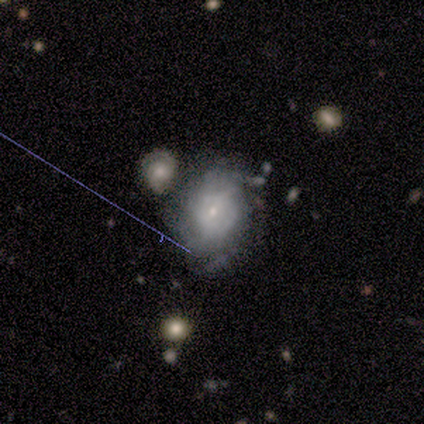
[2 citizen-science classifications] smooth-or-featured: smooth: 100% | featured or disk: 0% | star or artifact: 0%
  how-rounded: round: 50% (tied) | in between: 50% (tied) | cigar-shaped: 0%
  merging: none: 100% | minor disturbance: 0% | major disturbance: 0% | merger: 0%